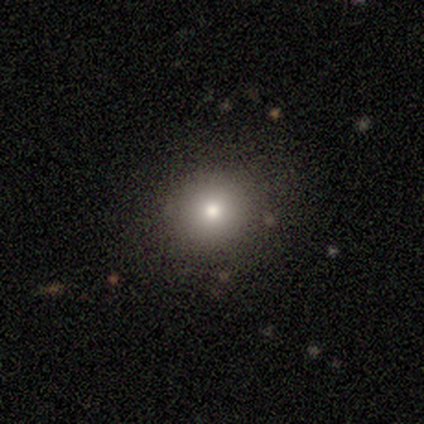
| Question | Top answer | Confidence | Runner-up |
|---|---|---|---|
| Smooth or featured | smooth | 100% | — |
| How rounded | round | 100% | — |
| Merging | none | 100% | — |